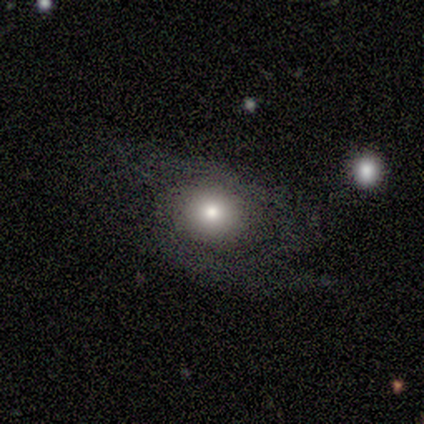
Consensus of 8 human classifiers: smooth_or_featured: featured or disk (p=0.50) [alt: smooth p=0.38]
disk_edge_on: no (p=1.00)
bar: no (p=1.00)
has_spiral_arms: yes (p=0.75) [alt: no p=0.25]
spiral_winding: tight (p=0.33) [tied with: medium p=0.33, loose p=0.33]
spiral_arm_count: 2 (p=1.00)
bulge_size: moderate (p=0.50) [alt: large p=0.25]
merging: none (p=0.57) [alt: major disturbance p=0.29]